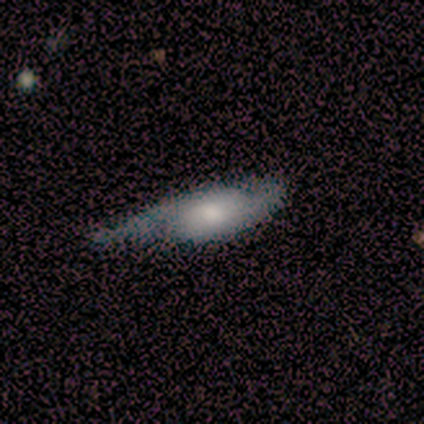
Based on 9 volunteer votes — Smooth or featured? 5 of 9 (56%) said featured or disk. Edge-on disk? 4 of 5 (80%) said no. Bar? 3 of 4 (75%) said no. Spiral arms? 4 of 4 (100%) said yes. Spiral winding? 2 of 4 (50%) said loose. Spiral arm count? 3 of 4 (75%) said 2. Bulge size? 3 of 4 (75%) said moderate. Merging? 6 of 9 (67%) said none.